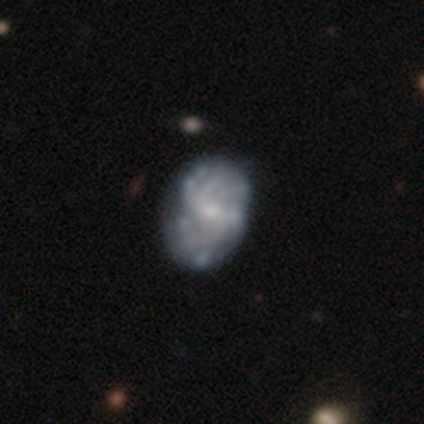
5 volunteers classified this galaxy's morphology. This appears to be a featured or disk galaxy (80%) with a weak bar (50%, tied with no), 3 (67%) medium (67%) spiral arms (75%) and a small central bulge (50%, tied with none). Merging: none (75%).